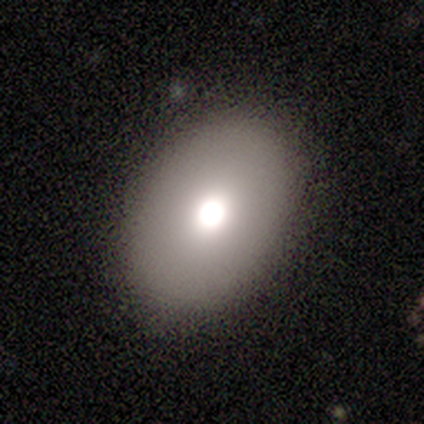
Smooth or featured: smooth — 60% (featured or disk — 40%)
How rounded: round — 67% (in between — 33%)
Merging: none — 80% (minor disturbance — 20%)